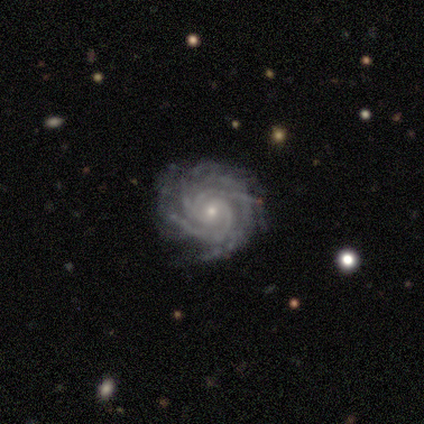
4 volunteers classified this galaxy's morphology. Overall: featured or disk (75%). Edge-on disk: no (100%). Bar: no (67%; strong 33%). Spiral arms: yes (67%; no 33%). Spiral arm count: 4 (100%). Spiral winding: tight (100%). Bulge size: small (67%; moderate 33%). Merging: none (67%; merger 33%).